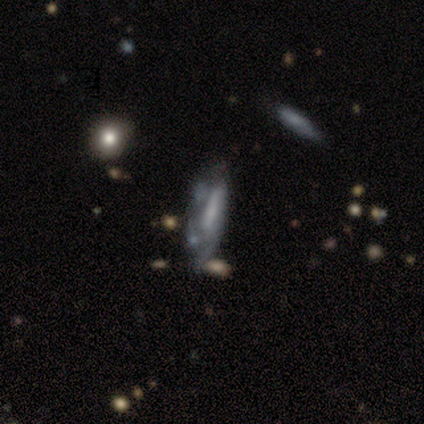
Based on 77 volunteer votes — featured or disk 77%, smooth 21%, star or artifact 3%. Down the decision tree: edge-on disk — no (71%); bar — strong (48%); spiral arms — yes (62%); spiral arm count — can't tell (62%); spiral winding — medium (54%); bulge size — small (38%); merging — none (23%, tied with minor disturbance).